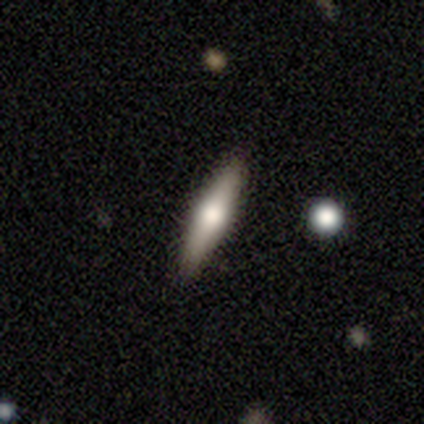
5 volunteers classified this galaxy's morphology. Smooth or featured? 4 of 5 (80%) said smooth. How rounded? 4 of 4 (100%) said cigar-shaped. Merging? 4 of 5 (80%) said none.